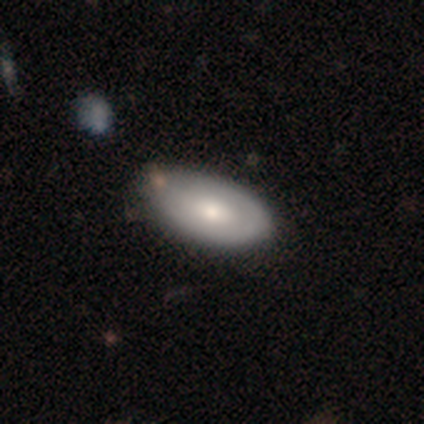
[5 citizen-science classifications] Q: Smooth or featured?
A: featured or disk (80%); runner-up: smooth (20%)
Q: Edge-on disk?
A: no (100%)
Q: Bar?
A: no (100%)
Q: Spiral arms?
A: no (100%)
Q: Bulge size?
A: moderate (100%)
Q: Merging?
A: none (100%)